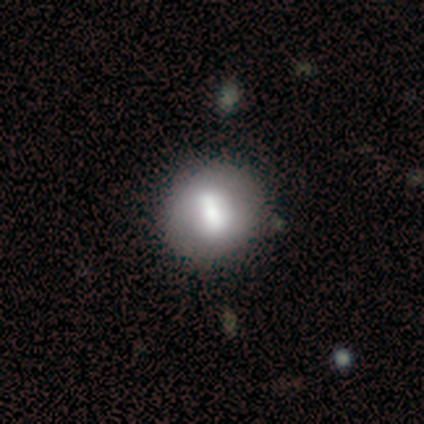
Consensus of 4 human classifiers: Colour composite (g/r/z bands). It shows a smooth galaxy with no disk features (50%) that is round (100%). Merging: none (67%).